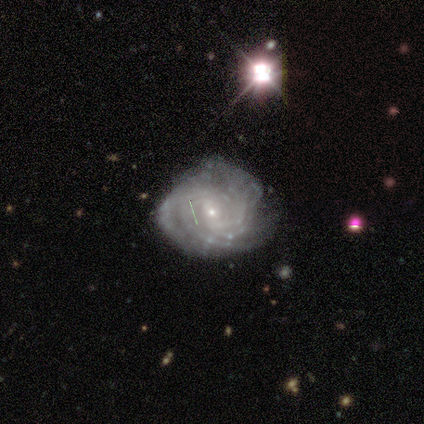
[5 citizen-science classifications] smooth-or-featured: featured or disk: 100% | smooth: 0% | star or artifact: 0%
  disk-edge-on: no: 100% | yes: 0%
    bar: no: 80% | strong: 20% | weak: 0%
    has-spiral-arms: yes: 100% | no: 0%
      spiral-winding: medium: 60% | tight: 40% | loose: 0%
      spiral-arm-count: 3: 40% | 4: 20% | more than 4: 20% | can't tell: 20% | 1: 0% | 2: 0%
    bulge-size: small: 80% | moderate: 20% | dominant: 0% | large: 0% | none: 0%
  merging: none: 80% | minor disturbance: 20% | major disturbance: 0% | merger: 0%